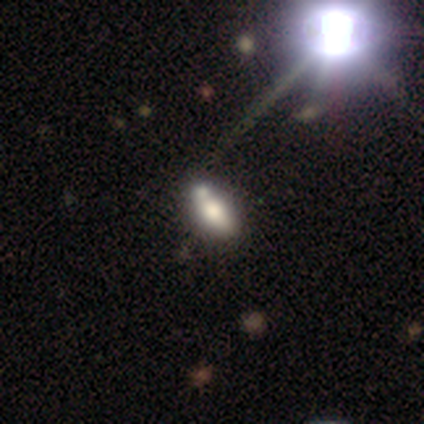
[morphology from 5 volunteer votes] Smooth or featured: featured or disk — 60% (smooth — 40%)
Edge-on disk: no — 100%
Bar: no — 67% (weak — 33%)
Spiral arms: no — 100%
Bulge size: moderate — 67% (large — 33%)
Merging: none — 80% (merger — 20%)